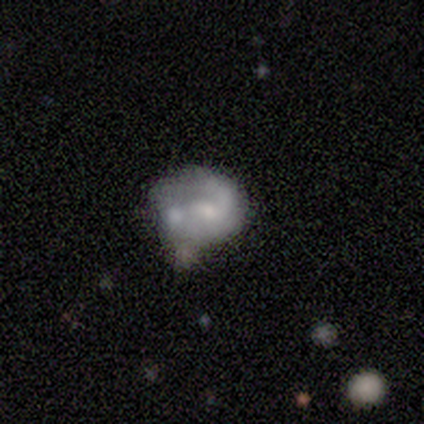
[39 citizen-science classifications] smooth-or-featured: featured or disk: 67% | smooth: 28% | star or artifact: 5%
  disk-edge-on: no: 100% | yes: 0%
    bar: no: 62% | weak: 38% | strong: 0%
    has-spiral-arms: yes: 58% | no: 42%
      spiral-winding: medium: 53% | tight: 40% | loose: 7%
      spiral-arm-count: 1: 60% | can't tell: 20% | 2: 13% | 3: 7% | 4: 0% | more than 4: 0%
    bulge-size: small: 46% | moderate: 31% | none: 12% | large: 8% | dominant: 4%
  merging: minor disturbance: 38% | merger: 30% | none: 19% | major disturbance: 14%